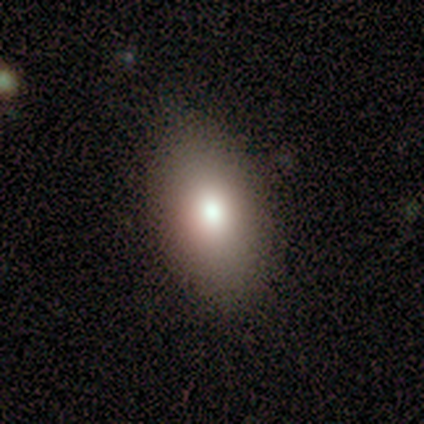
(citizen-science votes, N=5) A smooth galaxy with no disk features (100%) that is in between round and cigar-shaped (100%). Merging: none (100%).